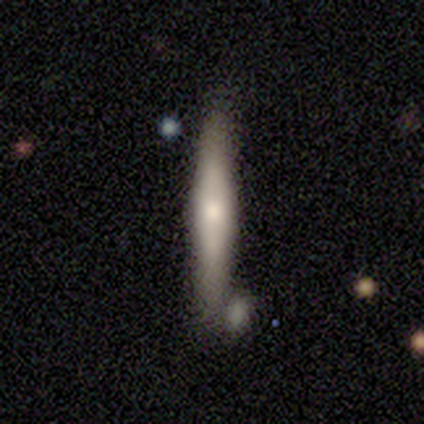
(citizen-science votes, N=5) Overall: smooth (60%; featured or disk 40%). How rounded: cigar-shaped (100%). Merging: none (80%).